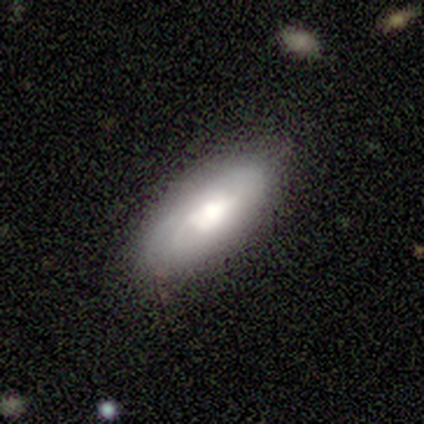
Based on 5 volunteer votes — Overall: smooth (60%; featured or disk 40%). How rounded: in between (67%; cigar-shaped 33%). Merging: none (60%; minor disturbance 40%).